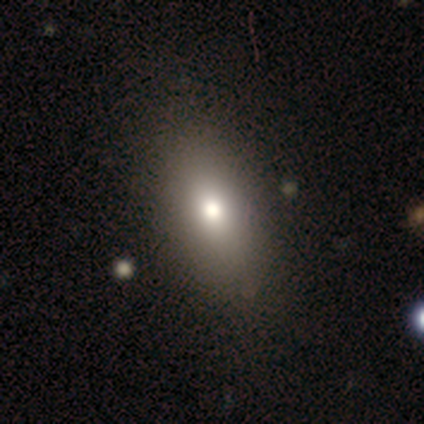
A smooth galaxy with no disk features (100%) that is in between round and cigar-shaped (100%). Merging: none (40%, tied with minor disturbance).